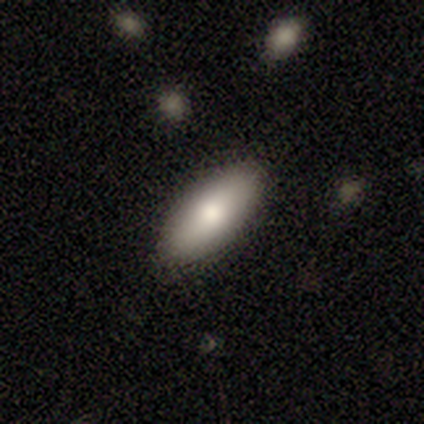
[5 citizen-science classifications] Smooth or featured?
  - smooth: 100% *
  - featured or disk: 0%
  - star or artifact: 0%
How rounded?
  - in between: 100% *
  - round: 0%
  - cigar-shaped: 0%
Merging?
  - none: 100% *
  - minor disturbance: 0%
  - major disturbance: 0%
  - merger: 0%